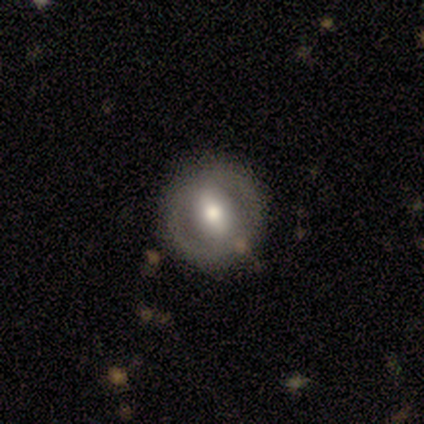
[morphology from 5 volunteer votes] Smooth or featured? featured or disk (100%)
Edge-on disk? no (100%)
Bar? weak (40%, tied with no)
Spiral arms? no (100%)
Bulge size? moderate (60%)
Merging? none (80%)